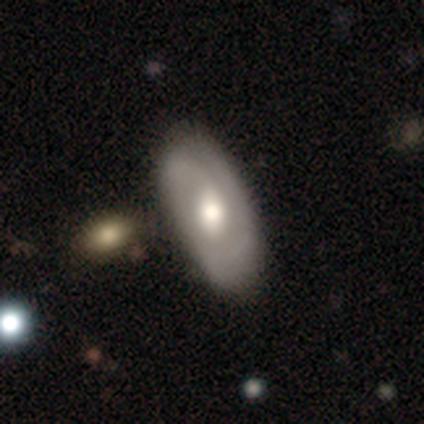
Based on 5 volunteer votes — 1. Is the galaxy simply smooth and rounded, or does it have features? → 80% featured or disk, 20% smooth, 0% star or artifact.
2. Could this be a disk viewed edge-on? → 100% no, 0% yes.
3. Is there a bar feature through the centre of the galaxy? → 50% no, 25% strong, 25% weak.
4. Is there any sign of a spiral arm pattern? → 100% yes, 0% no.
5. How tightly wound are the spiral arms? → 50% medium, 25% tight, 25% loose.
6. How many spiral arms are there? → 75% 2, 25% 1, 0% 3, 0% 4, 0% more than 4, 0% can't tell.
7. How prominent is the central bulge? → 75% moderate, 25% large, 0% dominant, 0% small, 0% none.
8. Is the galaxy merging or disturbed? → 60% none, 40% minor disturbance, 0% major disturbance, 0% merger.